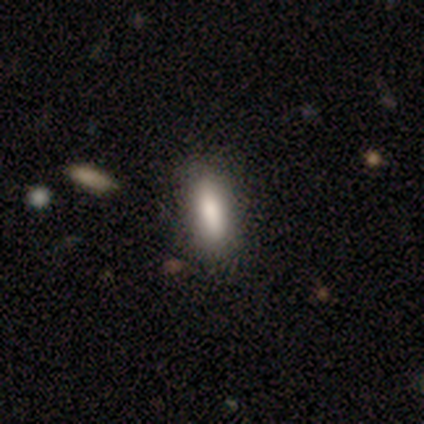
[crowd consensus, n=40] Smooth or featured: smooth — 88% (featured or disk — 10%)
How rounded: in between — 71% (cigar-shaped — 29%)
Merging: none — 54% (minor disturbance — 3%)